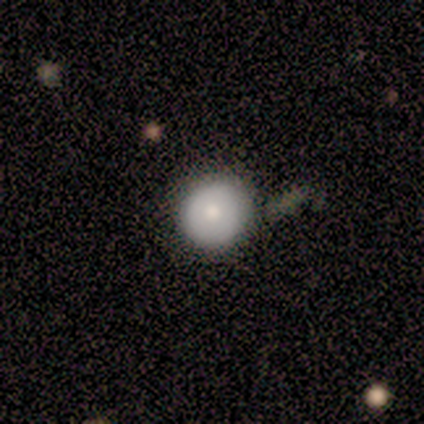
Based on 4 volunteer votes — This is possibly a smooth galaxy (50%). How rounded: clearly round (100%). Merging: likely none (67%).